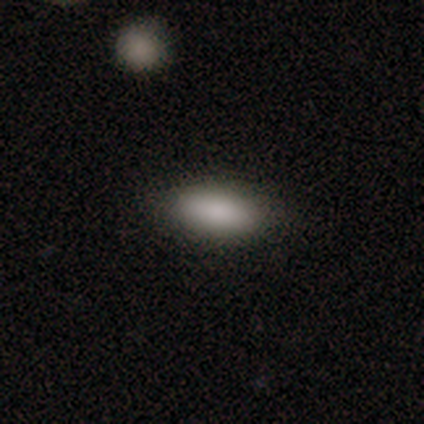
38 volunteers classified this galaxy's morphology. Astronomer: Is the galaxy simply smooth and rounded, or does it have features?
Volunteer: smooth — 89%.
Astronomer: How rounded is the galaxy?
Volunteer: in between — 82%.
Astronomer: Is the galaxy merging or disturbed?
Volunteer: none — 89%.